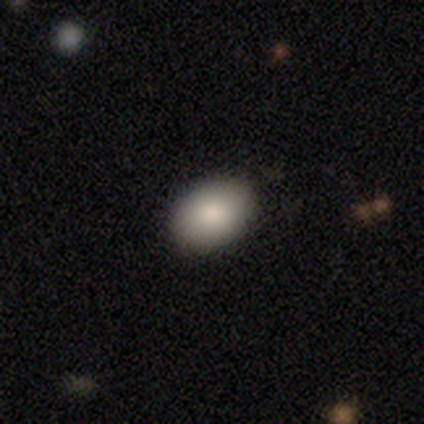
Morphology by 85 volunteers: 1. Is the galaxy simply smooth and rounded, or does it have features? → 92% smooth, 7% star or artifact, 1% featured or disk.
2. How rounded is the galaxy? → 86% in between, 14% round, 0% cigar-shaped.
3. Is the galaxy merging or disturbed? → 94% none, 5% minor disturbance, 1% major disturbance, 0% merger.